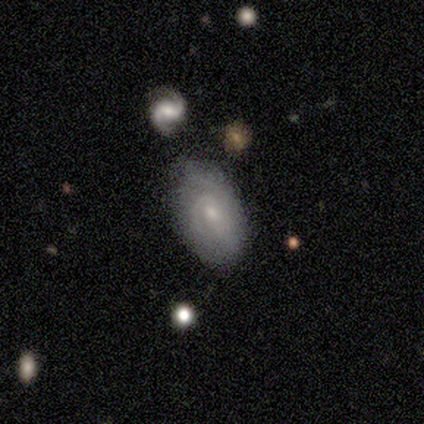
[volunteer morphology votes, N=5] smooth-or-featured: featured or disk: 80% | star or artifact: 20% | smooth: 0%
  disk-edge-on: no: 100% | yes: 0%
    bar: weak: 50% (tied) | no: 50% (tied) | strong: 0%
    has-spiral-arms: yes: 100% | no: 0%
      spiral-winding: tight: 75% | medium: 25% | loose: 0%
      spiral-arm-count: 2: 50% (tied) | can't tell: 50% (tied) | 1: 0% | 3: 0% | 4: 0% | more than 4: 0%
    bulge-size: moderate: 50% (tied) | small: 50% (tied) | dominant: 0% | large: 0% | none: 0%
  merging: none: 75% | major disturbance: 25% | minor disturbance: 0% | merger: 0%